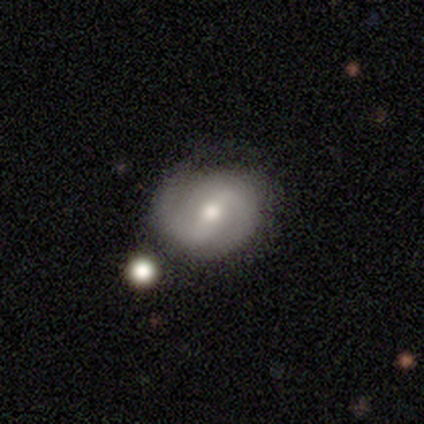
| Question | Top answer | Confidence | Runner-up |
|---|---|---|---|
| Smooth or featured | featured or disk | 82% | smooth (18%) |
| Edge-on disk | no | 100% | — |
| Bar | strong | 58% | weak (36%) |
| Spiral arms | yes | 82% | no (18%) |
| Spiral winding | medium | 56% | tight (22%) |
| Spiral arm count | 2 | 96% | 1 (4%) |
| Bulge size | moderate | 67% | small (21%) |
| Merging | none | 48% | minor disturbance (18%) |